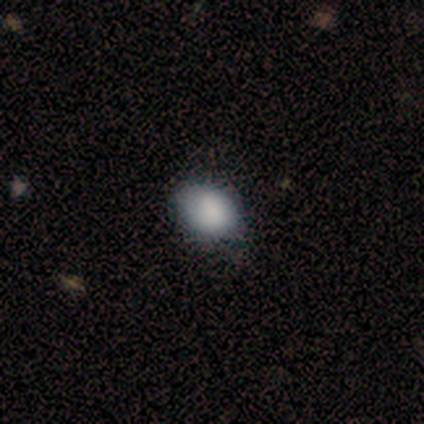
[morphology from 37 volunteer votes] type=smooth (86%); roundness=in between (69%); merging=none (85%).